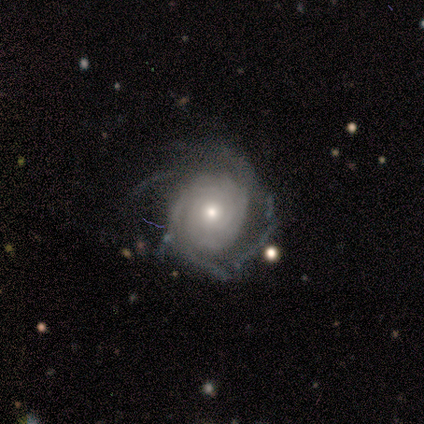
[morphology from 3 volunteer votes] Q: Smooth or featured?
A: featured or disk (100%)
Q: Edge-on disk?
A: no (100%)
Q: Bar?
A: no (67%); runner-up: weak (33%)
Q: Spiral arms?
A: yes (67%); runner-up: no (33%)
Q: Spiral winding?
A: tight (100%)
Q: Spiral arm count?
A: 2 (50%); tied with: can't tell (50%)
Q: Bulge size?
A: small (67%); runner-up: large (33%)
Q: Merging?
A: none (33%); tied with: minor disturbance (33%); major disturbance (33%)